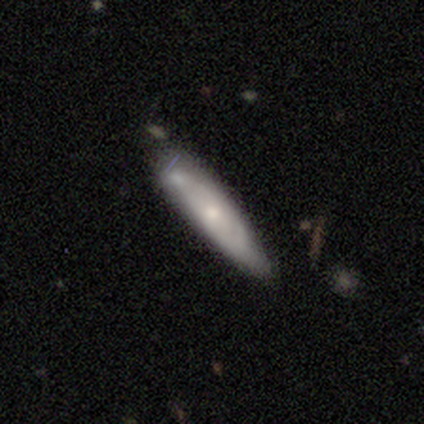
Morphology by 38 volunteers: Smooth or featured?
  - smooth: 53% *
  - featured or disk: 45%
  - star or artifact: 3%
How rounded?
  - cigar-shaped: 70% *
  - in between: 25%
  - round: 5%
Merging?
  - none: 59% *
  - minor disturbance: 19%
  - merger: 16%
  - major disturbance: 5%